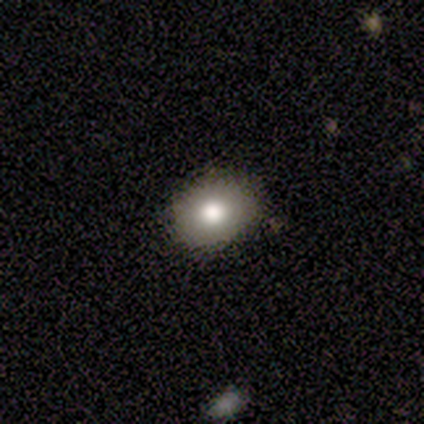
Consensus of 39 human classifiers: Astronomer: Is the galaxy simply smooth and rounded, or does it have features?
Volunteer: smooth — 67%.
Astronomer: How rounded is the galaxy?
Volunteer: round — 50%, tied with in between at 50%.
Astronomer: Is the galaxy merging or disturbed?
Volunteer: none — 94%.